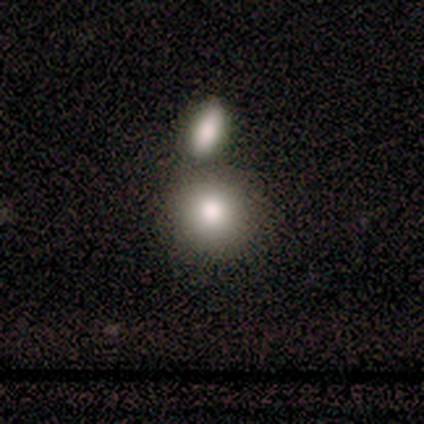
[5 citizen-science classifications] Morphology: type=smooth (80%); roundness=round (100%); merging=none (100%).